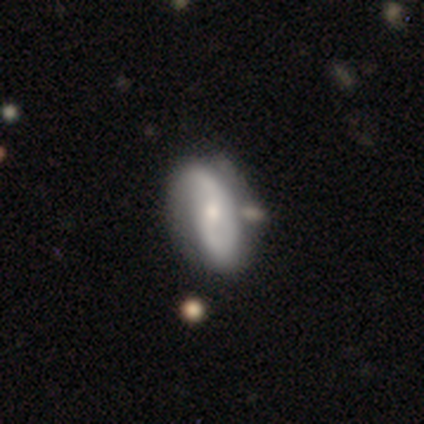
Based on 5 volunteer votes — This is clearly a featured or disk galaxy (100%). It is clearly not viewed edge-on (100%). Bar: marginally weak (40%, tied with no). Spiral arm pattern: clearly yes (100%). Spiral arm count: clearly 2 (80%). Spiral winding: marginally tight (40%, tied with loose). Central bulge: clearly moderate (80%). Merging: likely minor disturbance (60%).